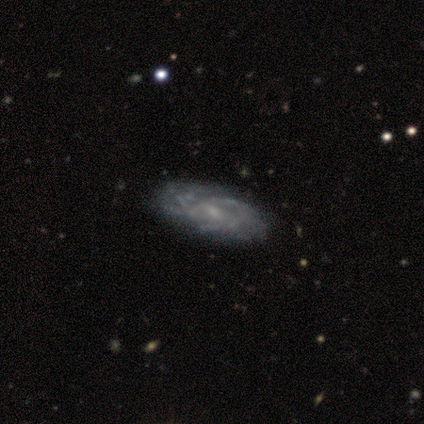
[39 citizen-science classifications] A featured or disk galaxy (95%) with no bar (58%), tight (55%) spiral arms (86%) and a small central bulge (64%).

Vote fractions:
- Smooth or featured? featured or disk: 95% / smooth: 3% / star or artifact: 3%
- Edge-on disk? no: 97% / yes: 3%
- Bar? no: 58% / weak: 39% / strong: 3%
- Spiral arms? yes: 86% / no: 14%
- Spiral winding? tight: 55% / medium: 32% / loose: 13%
- Spiral arm count? can't tell: 45% / 3: 19% / more than 4: 16% / 2: 10% / 4: 10% / 1: 0%
- Bulge size? small: 64% / none: 25% / moderate: 11% / dominant: 0% / large: 0%
- Merging? none: 45% / minor disturbance: 11% / major disturbance: 5% / merger: 3%